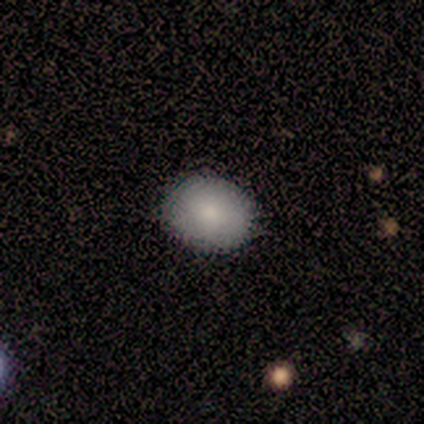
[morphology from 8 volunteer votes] Smooth or featured? smooth (88%)
How rounded? in between (57%)
Merging? none (100%)